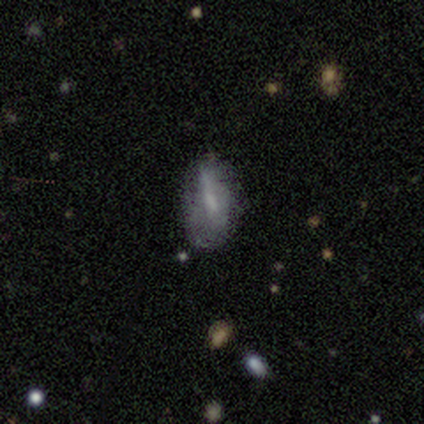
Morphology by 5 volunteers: smooth-or-featured: smooth: 60% | featured or disk: 40% | star or artifact: 0%
  how-rounded: in between: 100% | round: 0% | cigar-shaped: 0%
  merging: none: 60% | minor disturbance: 40% | major disturbance: 0% | merger: 0%